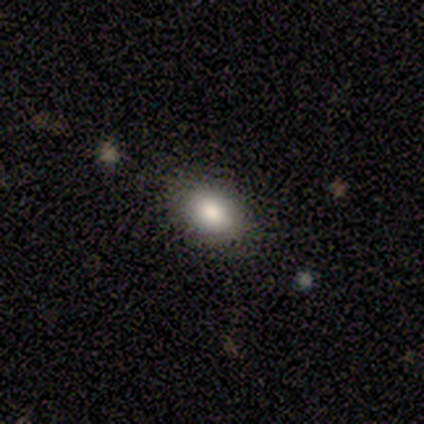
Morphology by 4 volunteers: smooth 75%, featured or disk 25%, star or artifact 0%. Down the decision tree: how rounded — in between (100%); merging — none (50%).